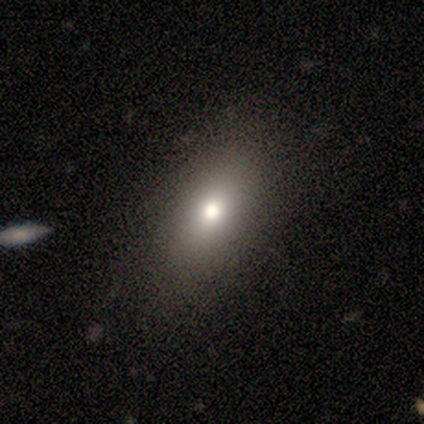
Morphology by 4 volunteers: Smooth or featured? smooth (50%)
How rounded? in between (100%)
Merging? none (100%)